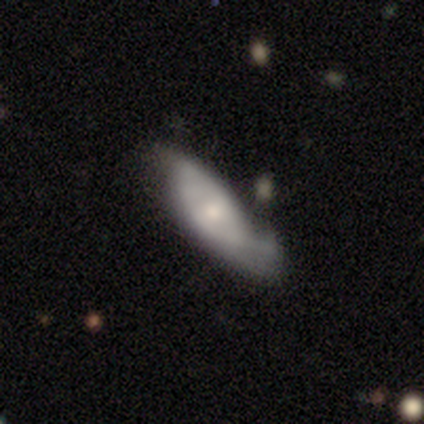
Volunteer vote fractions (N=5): A featured or disk galaxy (60%) with no bar (100%), 1 (50%, tied with 2) tight (100%) spiral arms (67%) and a small central bulge (67%).

Vote fractions:
- Smooth or featured? featured or disk: 60% / smooth: 40% / star or artifact: 0%
- Edge-on disk? no: 100% / yes: 0%
- Bar? no: 100% / strong: 0% / weak: 0%
- Spiral arms? yes: 67% / no: 33%
- Spiral winding? tight: 100% / medium: 0% / loose: 0%
- Spiral arm count? 1: 50% (tied) / 2: 50% (tied) / 3: 0% / 4: 0% / more than 4: 0% / can't tell: 0%
- Bulge size? small: 67% / moderate: 33% / dominant: 0% / large: 0% / none: 0%
- Merging? none: 40% / minor disturbance: 20% / major disturbance: 20% / merger: 20%